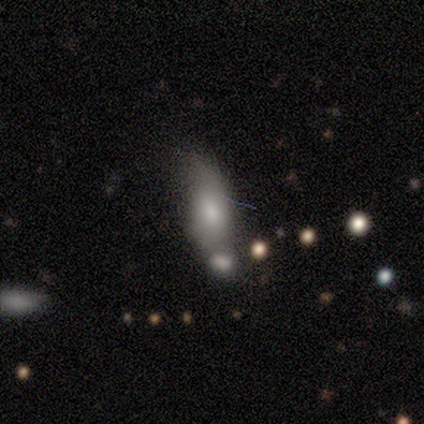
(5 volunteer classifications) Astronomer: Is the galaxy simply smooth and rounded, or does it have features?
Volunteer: smooth — 60%.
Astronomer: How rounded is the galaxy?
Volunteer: in between — 100%.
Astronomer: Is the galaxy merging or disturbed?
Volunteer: minor disturbance — 50%.